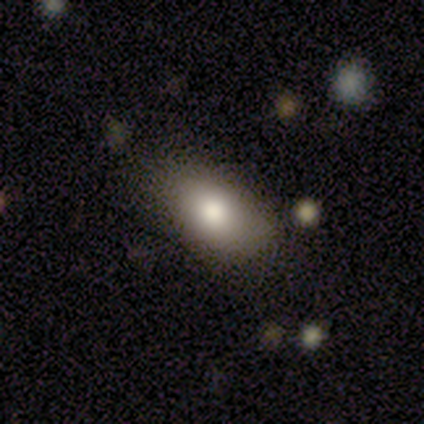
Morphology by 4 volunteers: Overall: smooth (100%). How rounded: in between (75%). Merging: none (100%).